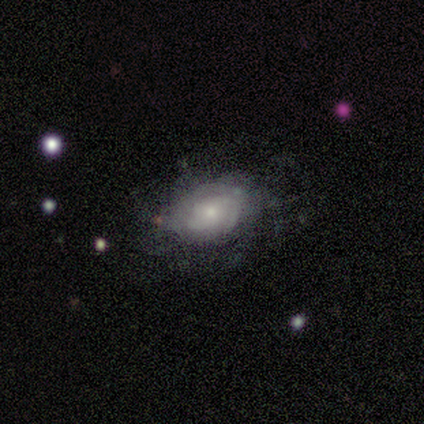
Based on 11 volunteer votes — Q: Smooth or featured?
A: featured or disk (64%); runner-up: smooth (18%)
Q: Edge-on disk?
A: no (100%)
Q: Bar?
A: no (100%)
Q: Spiral arms?
A: yes (71%); runner-up: no (29%)
Q: Spiral winding?
A: tight (60%); runner-up: loose (40%)
Q: Spiral arm count?
A: can't tell (60%); runner-up: 2 (20%)
Q: Bulge size?
A: small (100%)
Q: Merging?
A: none (67%); runner-up: major disturbance (22%)